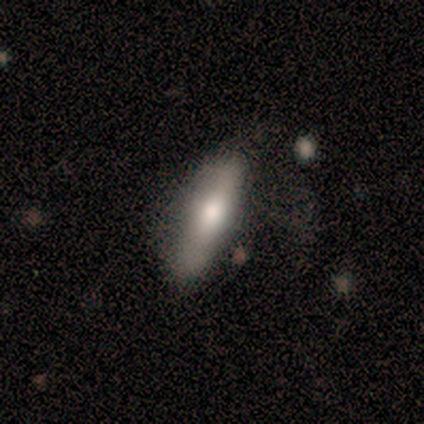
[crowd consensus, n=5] Smooth or featured?
  - smooth: 80% *
  - star or artifact: 20%
  - featured or disk: 0%
How rounded?
  - in between: 50% * (tied)
  - cigar-shaped: 50% * (tied)
  - round: 0%
Merging?
  - none: 75% *
  - minor disturbance: 25%
  - major disturbance: 0%
  - merger: 0%